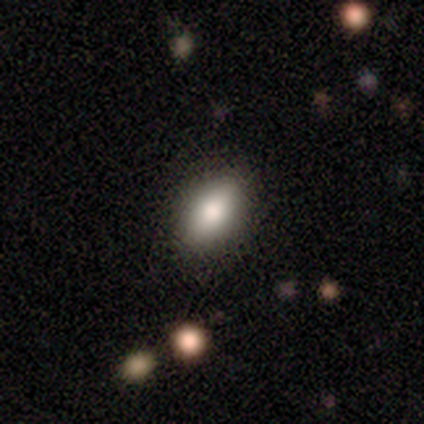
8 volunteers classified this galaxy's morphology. Smooth or featured?
  - smooth: 88% *
  - featured or disk: 12%
  - star or artifact: 0%
How rounded?
  - in between: 100% *
  - round: 0%
  - cigar-shaped: 0%
Merging?
  - none: 75% *
  - minor disturbance: 25%
  - major disturbance: 0%
  - merger: 0%